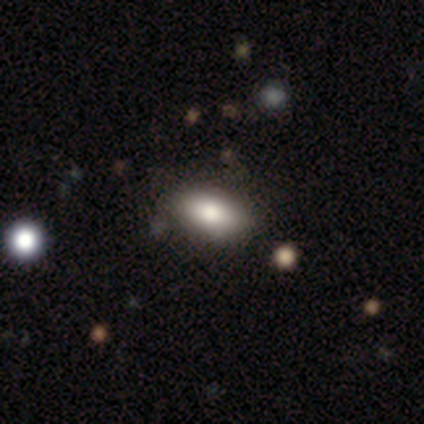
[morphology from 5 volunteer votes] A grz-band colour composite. It shows a smooth galaxy with no disk features (80%) that is in between round and cigar-shaped (75%). Merging: none (100%).